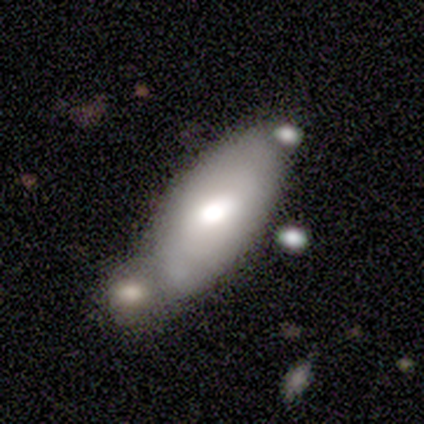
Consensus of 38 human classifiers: Overall: smooth (68%; featured or disk 32%). How rounded: in between (85%). Merging: merger (42%; none 29%).